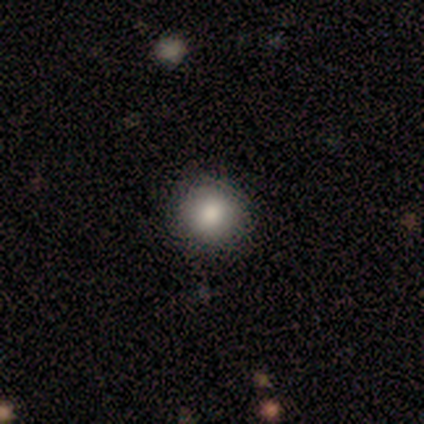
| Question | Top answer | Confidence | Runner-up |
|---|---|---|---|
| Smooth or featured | smooth | 40% | tied: star or artifact (40%) |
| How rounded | round | 100% | — |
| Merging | none | 100% | — |